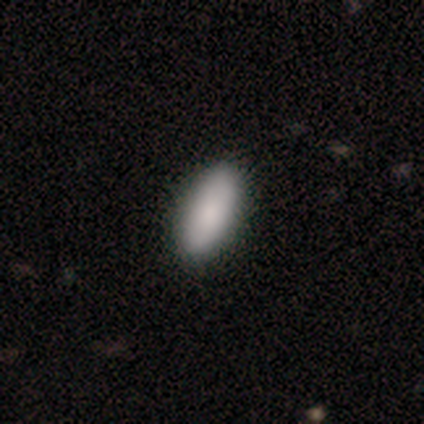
Smooth or featured? 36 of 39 (92%) said smooth. How rounded? 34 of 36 (94%) said in between. Merging? 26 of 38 (68%) said none.